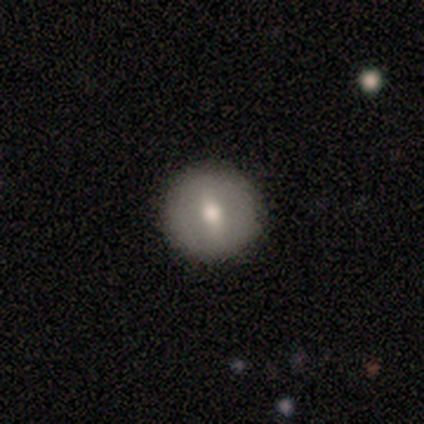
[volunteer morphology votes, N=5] Overall: smooth (60%; featured or disk 40%). How rounded: round (67%; cigar-shaped 33%). Merging: none (100%).